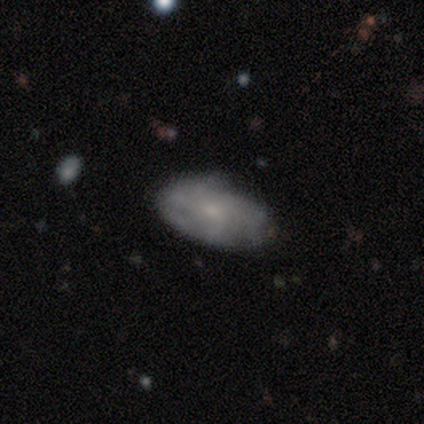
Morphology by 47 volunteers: Q: Smooth or featured?
A: smooth (51%); runner-up: featured or disk (43%)
Q: How rounded?
A: in between (79%); runner-up: round (12%)
Q: Merging?
A: none (52%); runner-up: minor disturbance (41%)